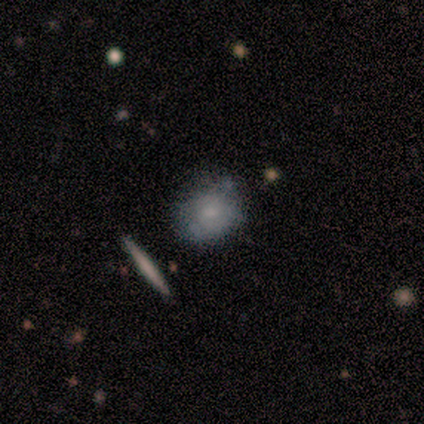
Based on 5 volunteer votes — Q: Smooth or featured?
A: smooth (60%); runner-up: featured or disk (20%)
Q: How rounded?
A: in between (67%); runner-up: round (33%)
Q: Merging?
A: none (75%); runner-up: minor disturbance (25%)